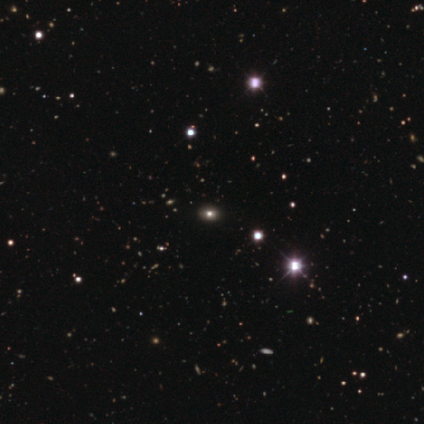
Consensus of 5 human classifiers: smooth-or-featured: star or artifact: 80% | smooth: 20% | featured or disk: 0%